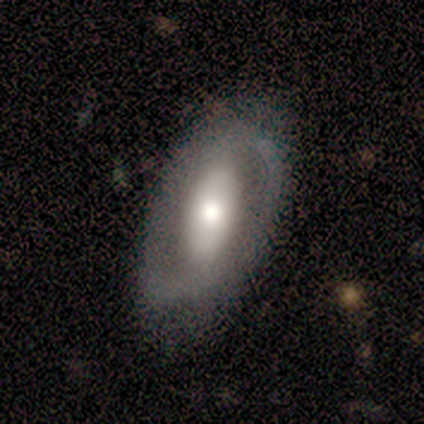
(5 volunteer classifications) A smooth galaxy with no disk features (60%) that is in between round and cigar-shaped (100%). Merging: none (80%).